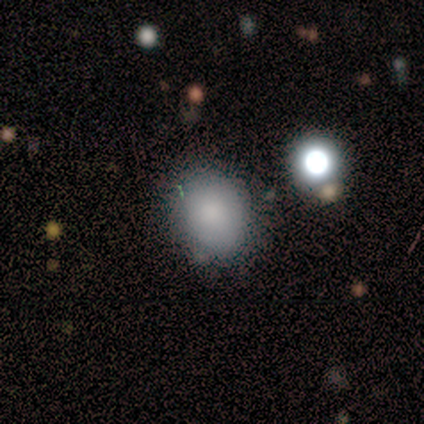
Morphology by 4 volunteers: A smooth galaxy with no disk features (100%) that is in between round and cigar-shaped (75%). Merging: none (75%).